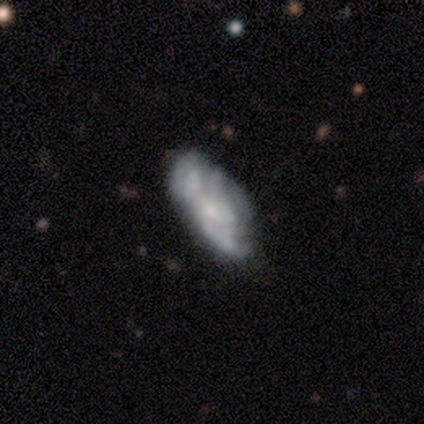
A featured or disk galaxy (62%) with no bar (80%), no spiral arms (60%) and a small central bulge (80%). Merging: none (38%, tied with minor disturbance).